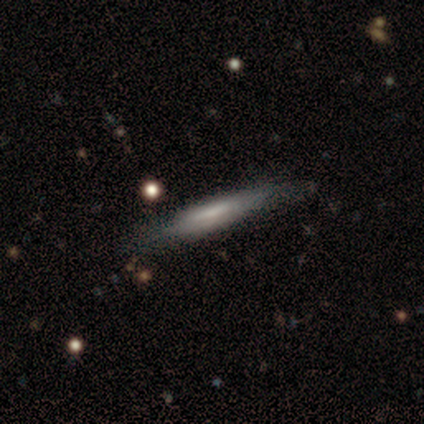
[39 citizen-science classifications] smooth_or_featured: featured or disk (p=0.56) [alt: smooth p=0.38]
disk_edge_on: yes (p=0.91) [alt: no p=0.09]
edge_on_bulge: none (p=0.45) [alt: boxy p=0.30]
merging: none (p=0.84) [alt: minor disturbance p=0.14]